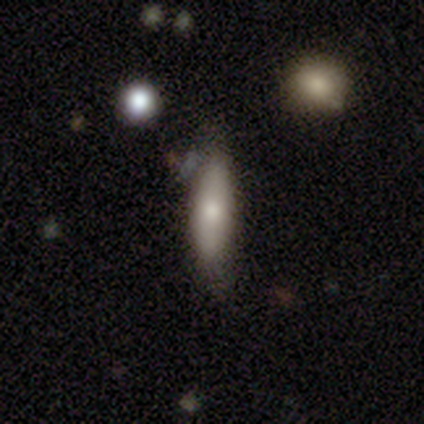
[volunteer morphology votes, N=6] Smooth or featured?
  - smooth: 100% *
  - featured or disk: 0%
  - star or artifact: 0%
How rounded?
  - cigar-shaped: 67% *
  - in between: 33%
  - round: 0%
Merging?
  - none: 100% *
  - minor disturbance: 0%
  - major disturbance: 0%
  - merger: 0%